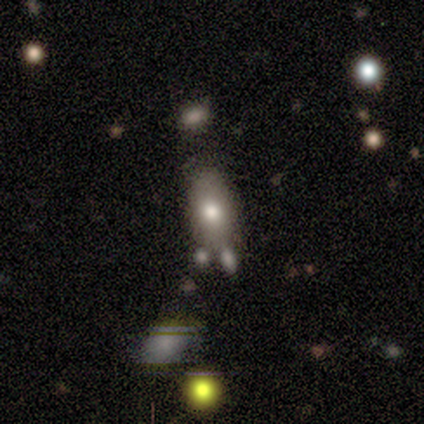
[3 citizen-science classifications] A smooth galaxy with no disk features (67%) that is in between round and cigar-shaped (100%). Merging: none (33%, tied with minor disturbance and major disturbance).